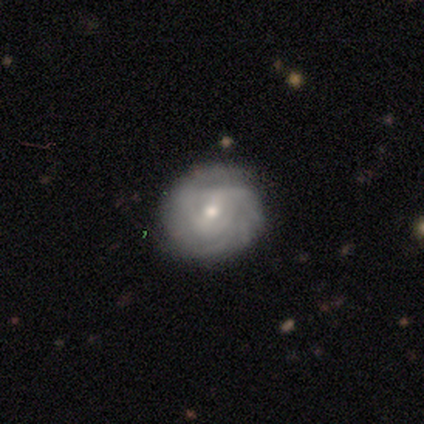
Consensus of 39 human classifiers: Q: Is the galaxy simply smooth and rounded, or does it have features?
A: featured or disk — 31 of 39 (79%).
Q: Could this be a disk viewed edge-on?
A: no — 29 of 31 (94%).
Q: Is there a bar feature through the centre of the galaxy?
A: no — 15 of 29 (52%).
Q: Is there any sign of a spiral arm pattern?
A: yes — 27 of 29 (93%).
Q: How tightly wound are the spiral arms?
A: tight — 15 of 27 (56%).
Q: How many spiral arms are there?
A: can't tell — 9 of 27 (33%).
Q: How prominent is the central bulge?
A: small — 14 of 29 (48%).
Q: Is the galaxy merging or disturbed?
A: none — 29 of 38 (76%).